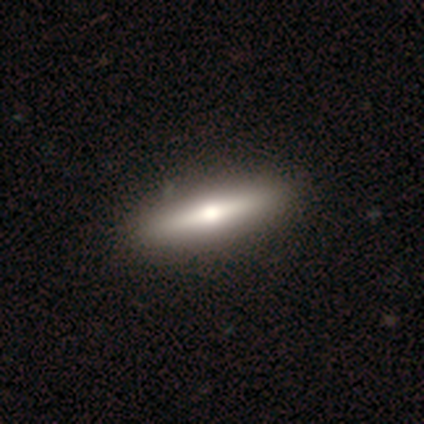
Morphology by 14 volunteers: A featured or disk galaxy (50%) viewed edge-on (86%) with a rounded central bulge (100%). Merging: none (92%).